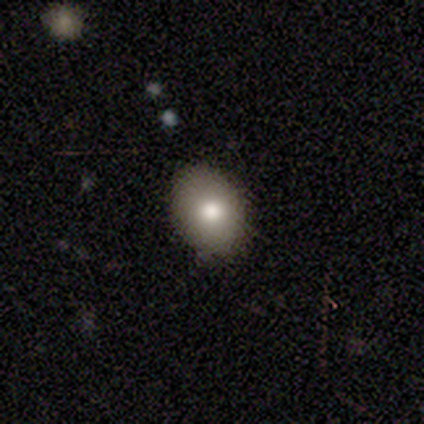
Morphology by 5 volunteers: smooth_or_featured: smooth (p=0.80) [alt: star or artifact p=0.20]
how_rounded: in between (p=1.00)
merging: none (p=0.75) [alt: minor disturbance p=0.25]